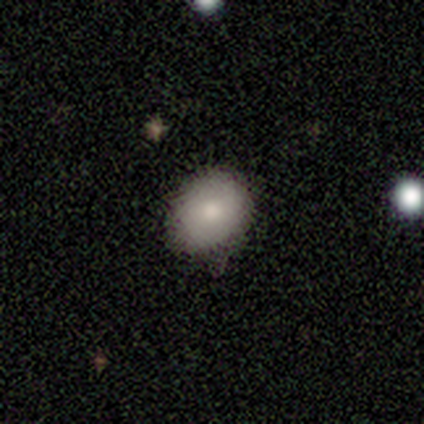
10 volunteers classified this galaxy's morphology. type=smooth (70%); roundness=in between (57%); merging=none (75%).